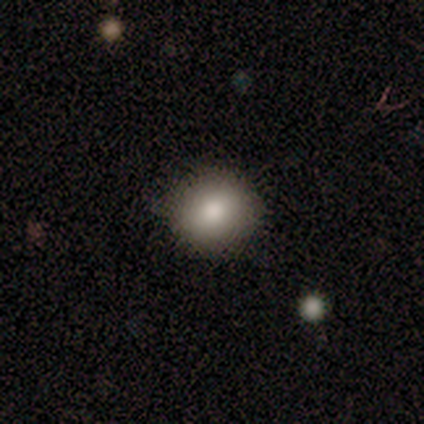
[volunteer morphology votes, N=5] Smooth or featured: smooth — 100%
How rounded: round — 100%
Merging: none — 100%